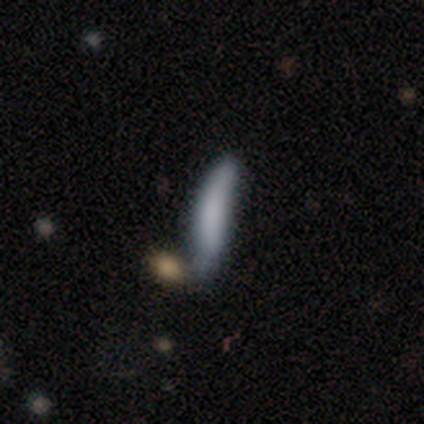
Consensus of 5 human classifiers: smooth_or_featured: smooth (p=1.00)
how_rounded: cigar-shaped (p=0.80) [alt: in between p=0.20]
merging: minor disturbance (p=0.80) [alt: major disturbance p=0.20]